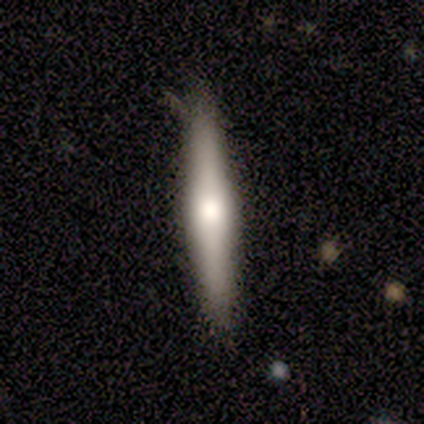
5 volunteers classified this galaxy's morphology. smooth-or-featured: smooth: 80% | featured or disk: 20% | star or artifact: 0%
  how-rounded: cigar-shaped: 100% | round: 0% | in between: 0%
  merging: none: 80% | major disturbance: 20% | minor disturbance: 0% | merger: 0%